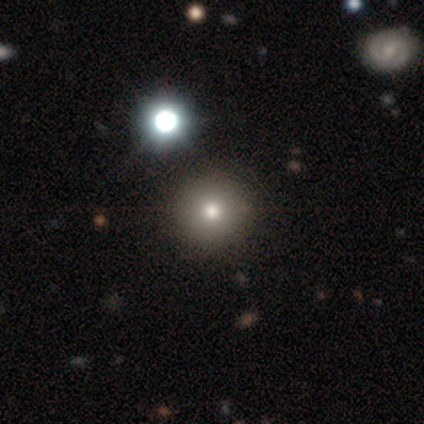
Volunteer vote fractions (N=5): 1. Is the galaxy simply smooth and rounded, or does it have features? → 80% smooth, 20% star or artifact, 0% featured or disk.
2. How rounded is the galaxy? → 100% round, 0% in between, 0% cigar-shaped.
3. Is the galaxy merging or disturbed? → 100% none, 0% minor disturbance, 0% major disturbance, 0% merger.